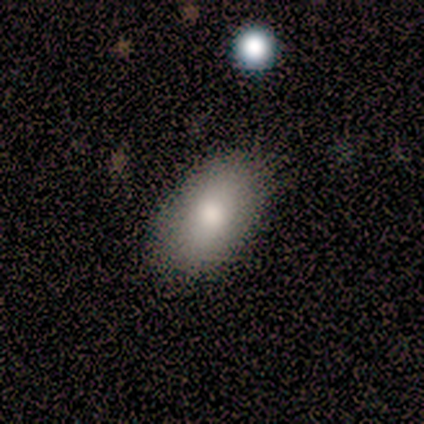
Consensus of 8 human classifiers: smooth 62%, featured or disk 25%, star or artifact 12%. Down the decision tree: how rounded — in between (80%); merging — none (86%).